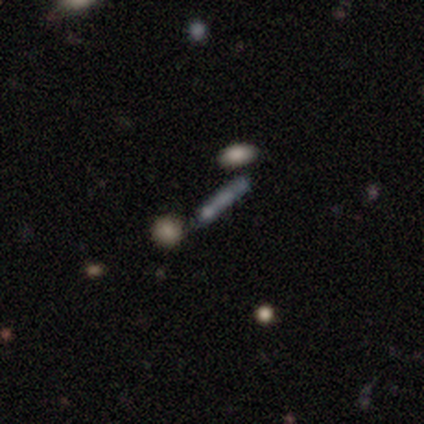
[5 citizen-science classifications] Morphology: type=smooth (80%); roundness=cigar-shaped (100%); merging=none (100%).